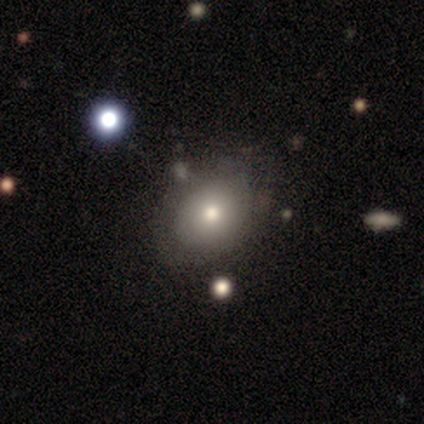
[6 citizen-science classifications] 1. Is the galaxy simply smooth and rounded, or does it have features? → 67% smooth, 33% featured or disk, 0% star or artifact.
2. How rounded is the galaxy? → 75% in between, 25% round, 0% cigar-shaped.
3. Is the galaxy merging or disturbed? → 83% none, 17% merger, 0% minor disturbance, 0% major disturbance.